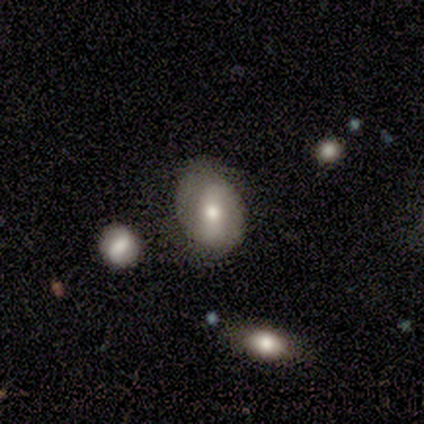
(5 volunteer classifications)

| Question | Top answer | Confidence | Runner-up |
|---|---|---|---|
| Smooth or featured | featured or disk | 60% | smooth (20%) |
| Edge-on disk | no | 100% | — |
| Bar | weak | 67% | strong (33%) |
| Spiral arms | yes | 67% | no (33%) |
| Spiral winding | tight | 50% | tied: loose (50%) |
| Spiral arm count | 2 | 100% | — |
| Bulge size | moderate | 100% | — |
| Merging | none | 100% | — |